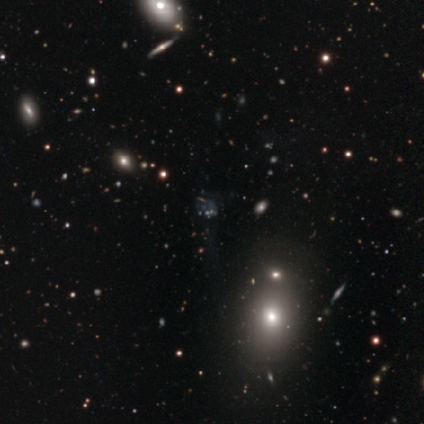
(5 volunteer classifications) Smooth or featured? 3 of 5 (60%) said star or artifact.